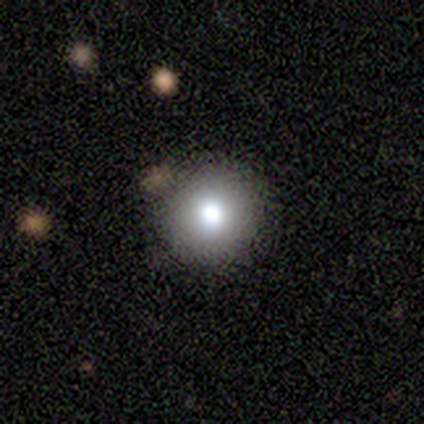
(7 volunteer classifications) Volunteers were most divided on "smooth or featured": smooth: 71%, star or artifact: 29%, featured or disk: 0%. More confident: how rounded — round (100%); merging — none (80%).